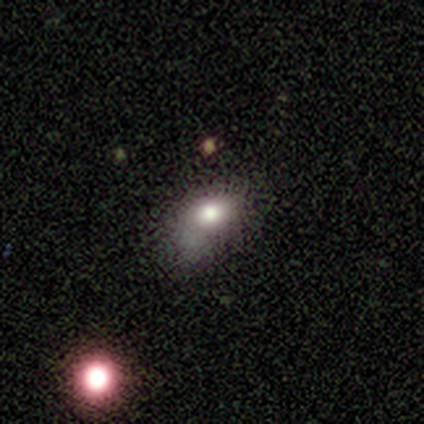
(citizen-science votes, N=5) A smooth galaxy with no disk features (80%) that is in between round and cigar-shaped (75%).

Vote fractions:
- Smooth or featured? smooth: 80% / featured or disk: 20% / star or artifact: 0%
- How rounded? in between: 75% / round: 25% / cigar-shaped: 0%
- Merging? minor disturbance: 80% / none: 20% / major disturbance: 0% / merger: 0%